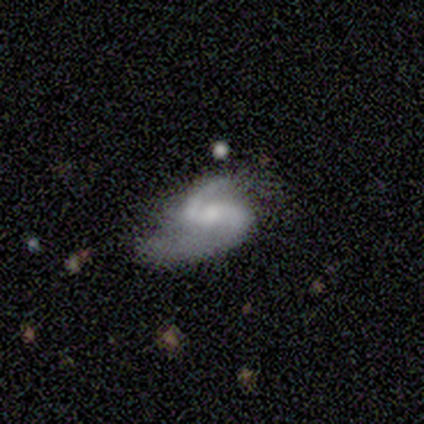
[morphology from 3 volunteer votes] smooth-or-featured: featured or disk: 100% | smooth: 0% | star or artifact: 0%
  disk-edge-on: no: 100% | yes: 0%
    bar: weak: 67% | strong: 33% | no: 0%
    has-spiral-arms: yes: 100% | no: 0%
      spiral-winding: medium: 100% | tight: 0% | loose: 0%
      spiral-arm-count: 2: 67% | 1: 33% | 3: 0% | 4: 0% | more than 4: 0% | can't tell: 0%
    bulge-size: moderate: 33% (tied) | small: 33% (tied) | none: 33% (tied) | dominant: 0% | large: 0%
  merging: none: 33% (tied) | major disturbance: 33% (tied) | merger: 33% (tied) | minor disturbance: 0%